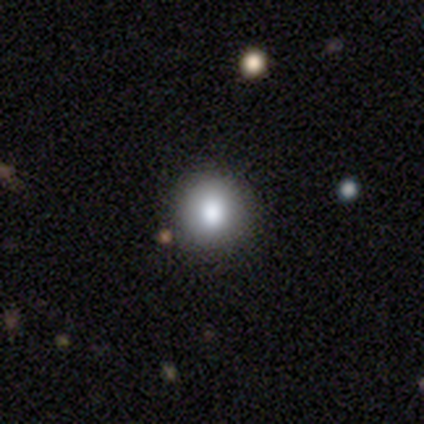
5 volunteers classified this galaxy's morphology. Smooth or featured? smooth (80%)
How rounded? round (75%)
Merging? none (75%)